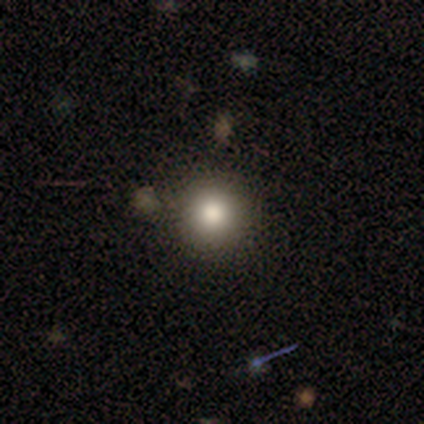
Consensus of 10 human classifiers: A smooth galaxy with no disk features (90%) that is round (100%). Merging: none (89%).